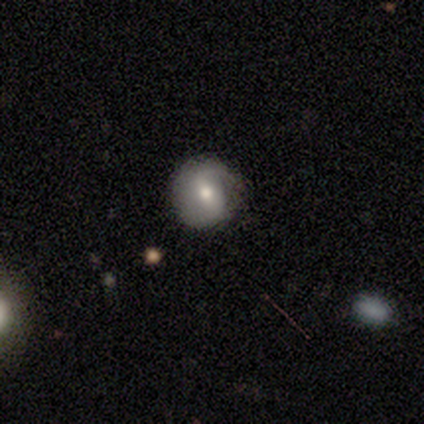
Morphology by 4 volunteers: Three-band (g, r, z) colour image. It shows a smooth galaxy with no disk features (50%, tied with featured or disk) that is round (100%). Merging: none (100%).